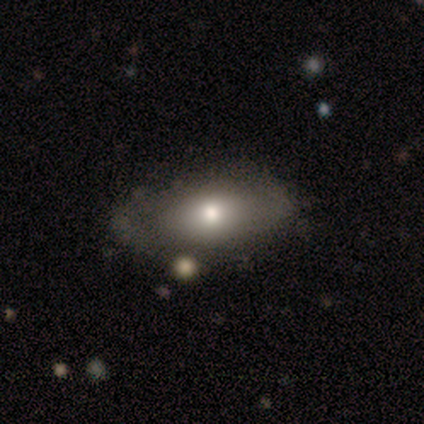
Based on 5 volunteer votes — Q: Smooth or featured?
A: smooth (60%); runner-up: featured or disk (20%)
Q: How rounded?
A: in between (100%)
Q: Merging?
A: none (75%); runner-up: minor disturbance (25%)